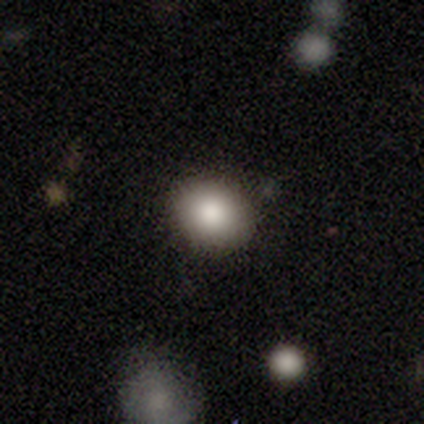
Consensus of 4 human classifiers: This appears to be a smooth galaxy with no disk features (100%) that is round (100%). Merging: none (100%).